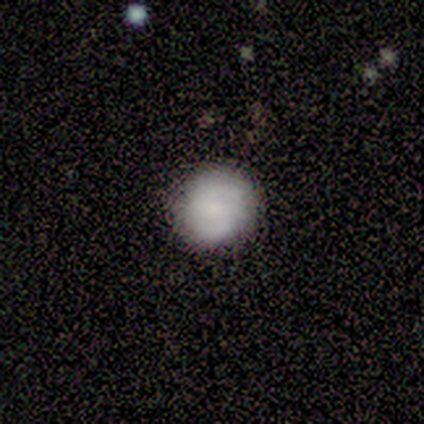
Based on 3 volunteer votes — Overall: smooth (67%; featured or disk 33%). How rounded: round (100%). Merging: none (100%).